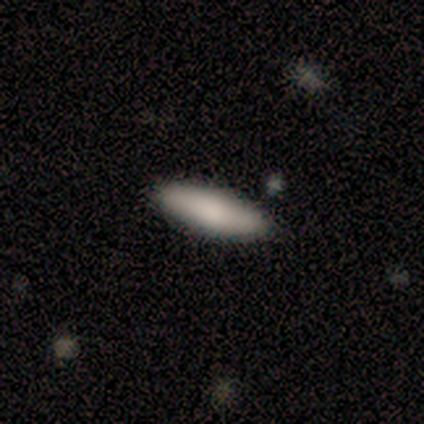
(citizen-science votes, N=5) This appears to be a smooth galaxy with no disk features (100%) that is in between round and cigar-shaped (80%). Merging: none (100%).